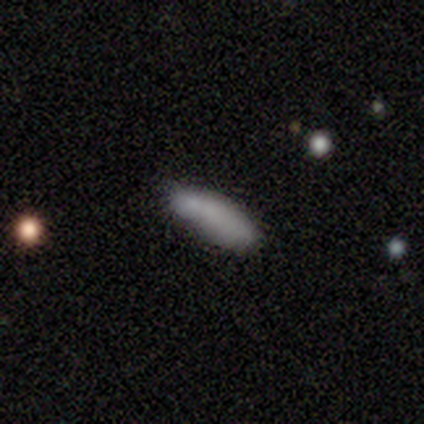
smooth-or-featured: smooth: 100% | featured or disk: 0% | star or artifact: 0%
  how-rounded: cigar-shaped: 60% | in between: 40% | round: 0%
  merging: none: 80% | minor disturbance: 20% | major disturbance: 0% | merger: 0%